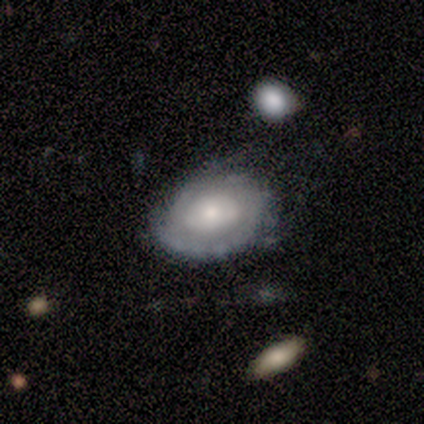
smooth_or_featured: featured or disk (p=0.60) [alt: smooth p=0.20]
disk_edge_on: no (p=1.00)
bar: no (p=1.00)
has_spiral_arms: no (p=1.00)
bulge_size: small (p=0.67) [alt: large p=0.33]
merging: none (p=0.75) [alt: minor disturbance p=0.25]